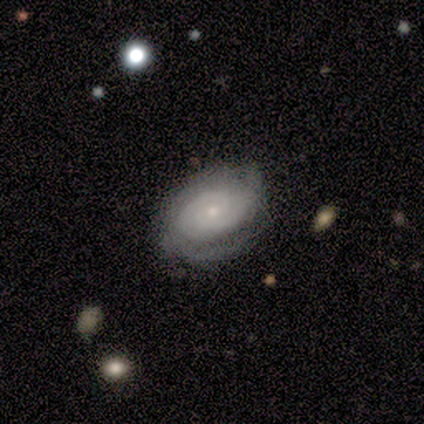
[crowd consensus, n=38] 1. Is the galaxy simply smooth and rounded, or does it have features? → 76% featured or disk, 18% smooth, 5% star or artifact.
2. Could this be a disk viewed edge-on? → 100% no, 0% yes.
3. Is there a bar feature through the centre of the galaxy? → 66% no, 28% weak, 7% strong.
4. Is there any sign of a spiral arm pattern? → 100% yes, 0% no.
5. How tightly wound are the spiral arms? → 66% tight, 21% medium, 14% loose.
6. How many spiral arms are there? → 45% 2, 31% can't tell, 14% 3, 7% 4, 3% 1, 0% more than 4.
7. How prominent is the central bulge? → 86% small, 10% moderate, 3% dominant, 0% large, 0% none.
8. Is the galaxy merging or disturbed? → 69% none, 25% minor disturbance, 6% major disturbance, 0% merger.